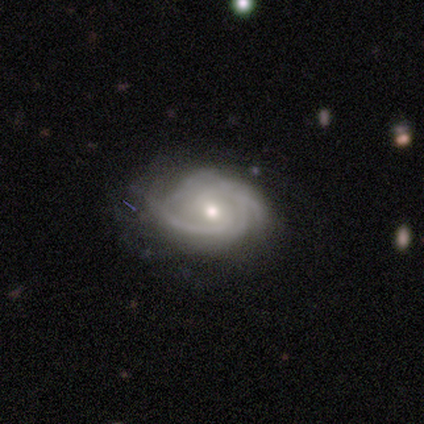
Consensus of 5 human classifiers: Q: Smooth or featured?
A: featured or disk (80%); runner-up: smooth (20%)
Q: Edge-on disk?
A: no (100%)
Q: Bar?
A: weak (75%); runner-up: no (25%)
Q: Spiral arms?
A: yes (100%)
Q: Spiral winding?
A: tight (75%); runner-up: loose (25%)
Q: Spiral arm count?
A: 2 (50%); tied with: 3 (50%)
Q: Bulge size?
A: moderate (75%); runner-up: large (25%)
Q: Merging?
A: none (80%); runner-up: minor disturbance (20%)